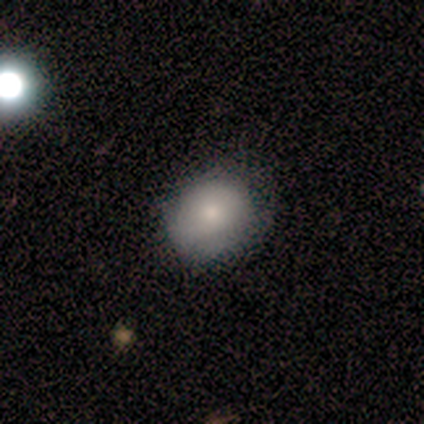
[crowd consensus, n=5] Smooth or featured? 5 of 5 (100%) said smooth. How rounded? 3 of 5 (60%) said round. Merging? 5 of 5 (100%) said none.